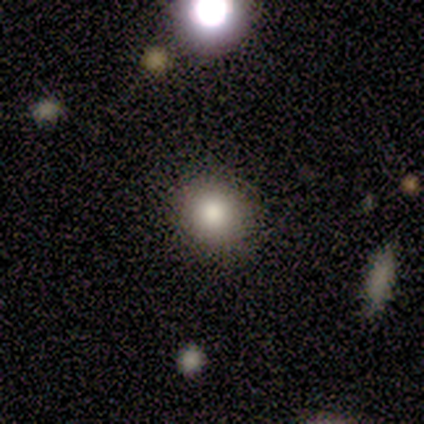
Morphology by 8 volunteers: smooth_or_featured: smooth (p=0.88) [alt: star or artifact p=0.12]
how_rounded: round (p=0.43) [tied with: in between p=0.43]
merging: none (p=0.86) [alt: major disturbance p=0.14]